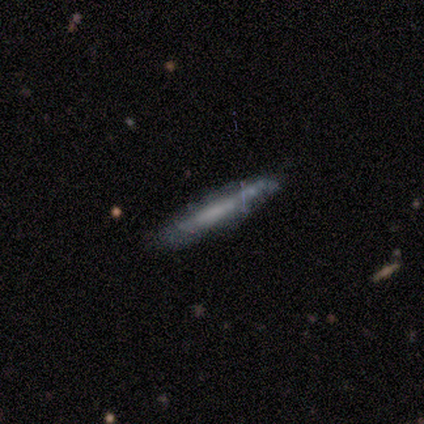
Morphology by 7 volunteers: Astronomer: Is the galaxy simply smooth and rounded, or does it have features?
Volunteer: featured or disk — 57% (runner-up: smooth, 43%).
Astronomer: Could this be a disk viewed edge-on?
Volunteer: yes — 75%.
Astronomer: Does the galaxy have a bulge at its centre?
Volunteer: none — 67%.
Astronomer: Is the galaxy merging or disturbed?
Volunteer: none — 86%.